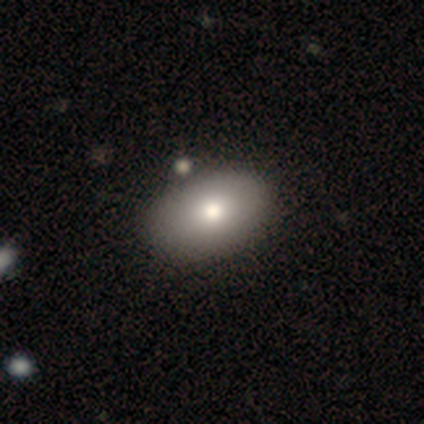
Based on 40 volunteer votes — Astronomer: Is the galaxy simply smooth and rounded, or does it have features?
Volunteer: smooth — 88%.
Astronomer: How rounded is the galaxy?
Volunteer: in between — 86%.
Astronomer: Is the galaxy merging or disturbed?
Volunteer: none — 62%.